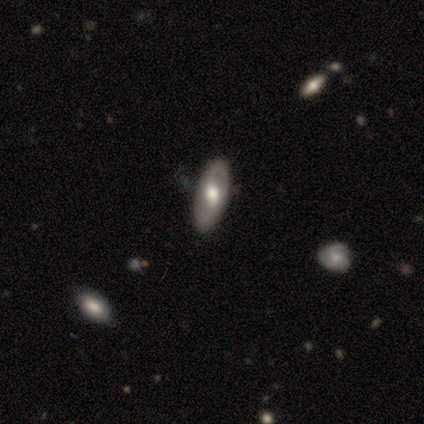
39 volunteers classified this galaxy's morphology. Smooth or featured? featured or disk (77%)
Edge-on disk? no (87%)
Bar? no (69%)
Spiral arms? yes (54%)
Spiral winding? medium (43%)
Spiral arm count? 2 (57%)
Bulge size? large (50%)
Merging? none (86%)